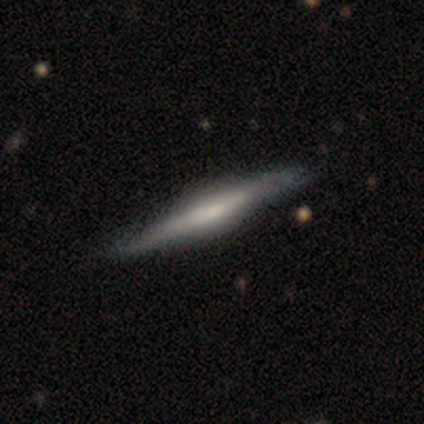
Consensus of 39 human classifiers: Overall: featured or disk (59%; smooth 38%). Edge-on disk: yes (100%). Edge-on bulge: rounded (48%; boxy 30%). Merging: none (50%; minor disturbance 18%).